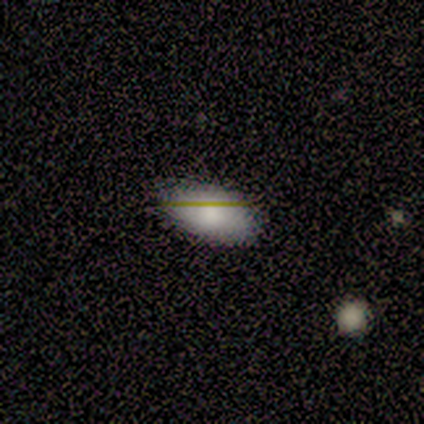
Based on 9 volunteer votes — Smooth or featured?
  - smooth: 89% *
  - featured or disk: 11%
  - star or artifact: 0%
How rounded?
  - in between: 100% *
  - round: 0%
  - cigar-shaped: 0%
Merging?
  - none: 89% *
  - minor disturbance: 11%
  - major disturbance: 0%
  - merger: 0%